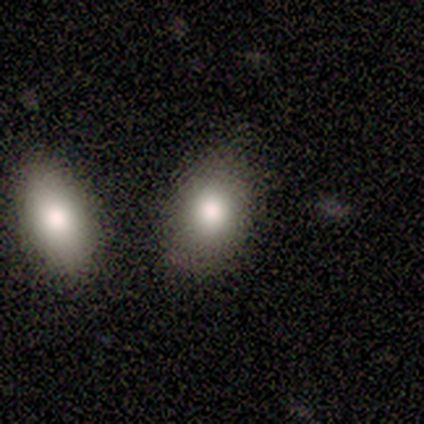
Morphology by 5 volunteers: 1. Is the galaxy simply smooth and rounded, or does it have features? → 60% smooth, 20% featured or disk, 20% star or artifact.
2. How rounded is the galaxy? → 100% in between, 0% round, 0% cigar-shaped.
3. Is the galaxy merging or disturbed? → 50% none (tied), 50% merger (tied), 0% minor disturbance, 0% major disturbance.